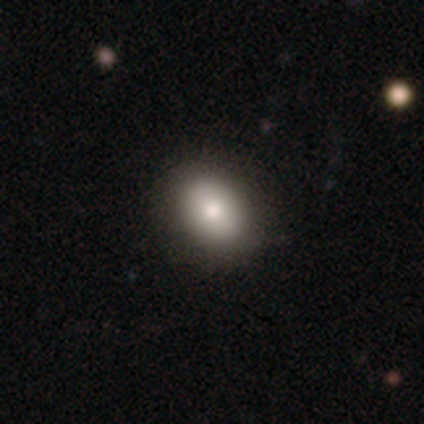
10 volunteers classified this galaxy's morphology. type=smooth (80%); roundness=round (75%); merging=none (80%).